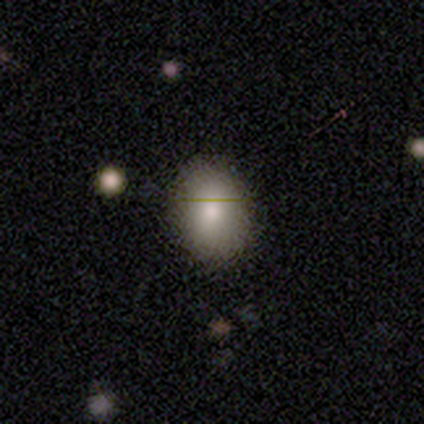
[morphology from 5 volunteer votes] Volunteers were most divided on "how rounded": in between: 75%, round: 25%, cigar-shaped: 0%. More confident: smooth or featured — smooth (80%); merging — none (80%).